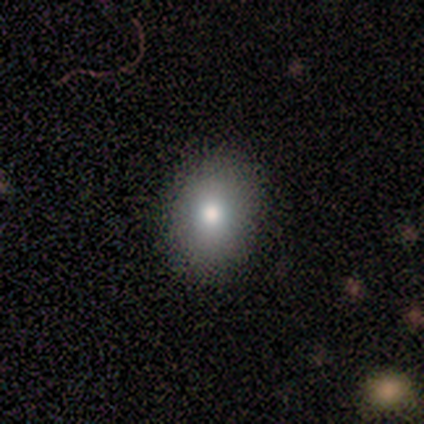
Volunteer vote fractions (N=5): Smooth or featured? smooth (100%)
How rounded? in between (60%)
Merging? none (80%)